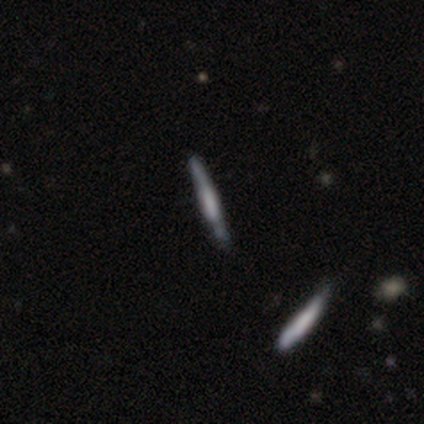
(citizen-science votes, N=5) Morphology: type=featured or disk (80%); edge-on=yes (100%); edge-on bulge=boxy (75%); merging=none (100%).